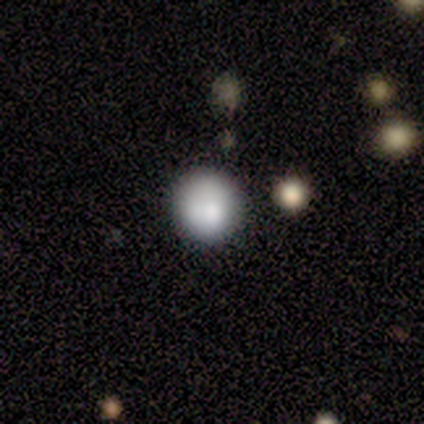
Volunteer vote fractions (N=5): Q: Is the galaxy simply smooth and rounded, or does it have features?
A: smooth — 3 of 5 (60%).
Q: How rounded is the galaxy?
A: round — 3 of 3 (100%).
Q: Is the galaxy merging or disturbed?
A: minor disturbance — 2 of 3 (67%).